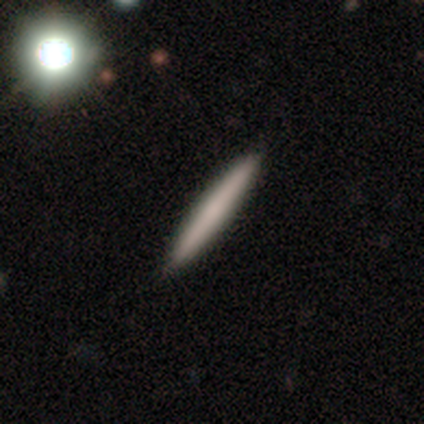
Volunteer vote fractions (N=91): This appears to be a smooth galaxy with no disk features (75%) that is cigar-shaped (100%). Merging: none (86%).